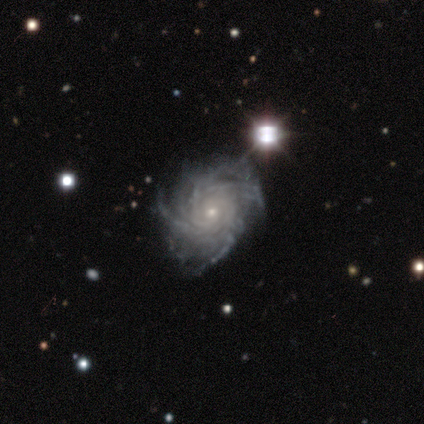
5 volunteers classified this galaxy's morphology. This is clearly a featured or disk galaxy (100%). It is clearly not viewed edge-on (100%). Bar: clearly no (100%). Spiral arm pattern: clearly yes (100%). Spiral arm count: marginally 3 (40%, tied with can't tell). Spiral winding: likely tight (60%). Central bulge: clearly small (100%). Merging: clearly none (80%).